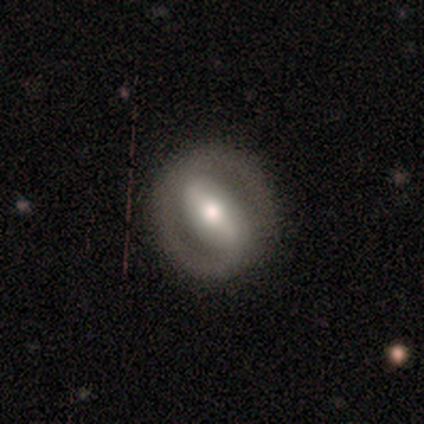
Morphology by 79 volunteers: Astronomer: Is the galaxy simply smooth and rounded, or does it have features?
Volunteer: featured or disk — 77%.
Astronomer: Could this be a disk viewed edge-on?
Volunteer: no — 95%.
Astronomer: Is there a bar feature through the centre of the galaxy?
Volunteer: strong — 71%.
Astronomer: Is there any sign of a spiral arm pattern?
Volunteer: yes — 62% (runner-up: no, 38%).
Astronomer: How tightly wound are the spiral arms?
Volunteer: tight — 42% (runner-up: medium, 36%).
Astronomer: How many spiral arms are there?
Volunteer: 2 — 78%.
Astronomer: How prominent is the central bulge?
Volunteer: moderate — 74%.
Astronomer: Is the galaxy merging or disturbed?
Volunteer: none — 49%.